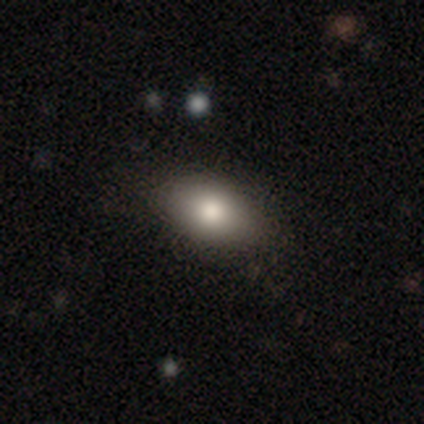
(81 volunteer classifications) Volunteers were most divided on "merging": none: 78%, minor disturbance: 19%, major disturbance: 3%, merger: 0%. More confident: how rounded — in between (91%); smooth or featured — smooth (80%).